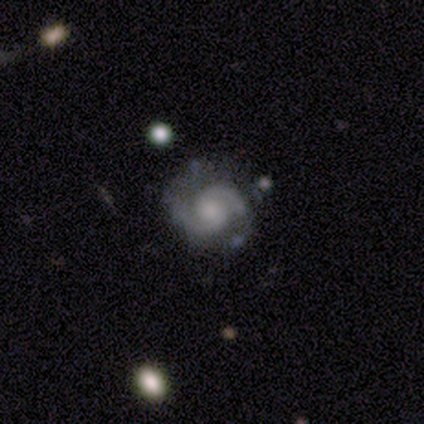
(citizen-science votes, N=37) featured or disk 95%, star or artifact 5%, smooth 0%. Down the decision tree: edge-on disk — no (100%); bar — no (60%); spiral arms — yes (97%); spiral arm count — 2 (97%); spiral winding — tight (50%); bulge size — small (49%); merging — none (77%).